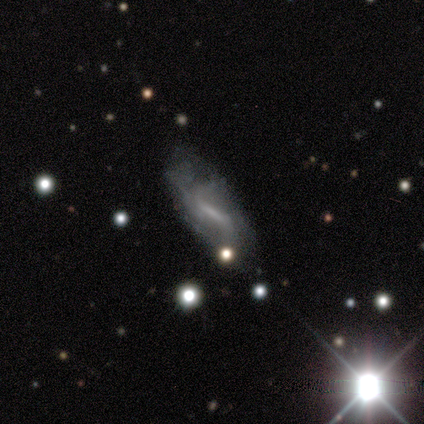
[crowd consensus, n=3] smooth-or-featured: featured or disk: 67% | star or artifact: 33% | smooth: 0%
  disk-edge-on: no: 100% | yes: 0%
    bar: strong: 50% (tied) | weak: 50% (tied) | no: 0%
    has-spiral-arms: yes: 100% | no: 0%
      spiral-winding: medium: 50% (tied) | loose: 50% (tied) | tight: 0%
      spiral-arm-count: 2: 50% (tied) | can't tell: 50% (tied) | 1: 0% | 3: 0% | 4: 0% | more than 4: 0%
    bulge-size: moderate: 50% (tied) | small: 50% (tied) | dominant: 0% | large: 0% | none: 0%
  merging: none: 100% | minor disturbance: 0% | major disturbance: 0% | merger: 0%